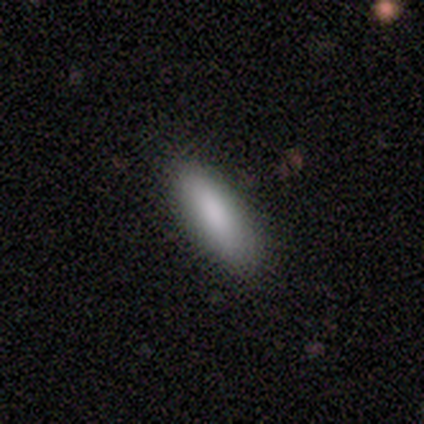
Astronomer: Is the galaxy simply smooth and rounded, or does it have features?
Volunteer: smooth — 100%.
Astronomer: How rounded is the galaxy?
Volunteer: in between — 71%.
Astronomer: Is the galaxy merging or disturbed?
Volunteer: none — 71%.